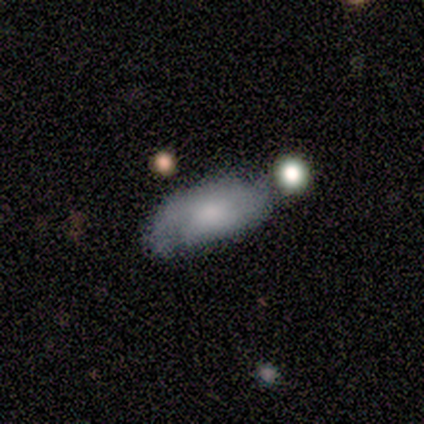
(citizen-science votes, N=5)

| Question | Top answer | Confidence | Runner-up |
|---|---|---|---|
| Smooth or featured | featured or disk | 60% | smooth (40%) |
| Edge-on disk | no | 100% | — |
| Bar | weak | 67% | no (33%) |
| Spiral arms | yes | 67% | no (33%) |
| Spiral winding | tight | 50% | tied: medium (50%) |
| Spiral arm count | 2 | 50% | tied: can't tell (50%) |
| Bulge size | small | 100% | — |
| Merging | none | 40% | tied: minor disturbance (40%) |